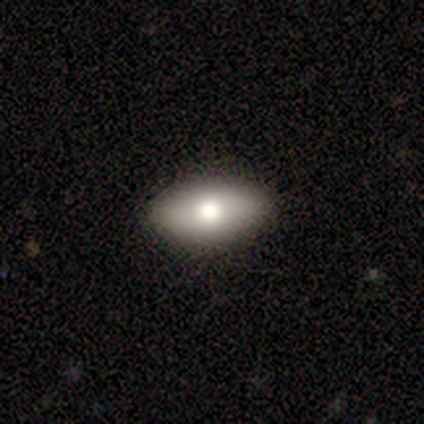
A smooth galaxy with no disk features (86%) that is in between round and cigar-shaped (83%). Merging: none (83%).